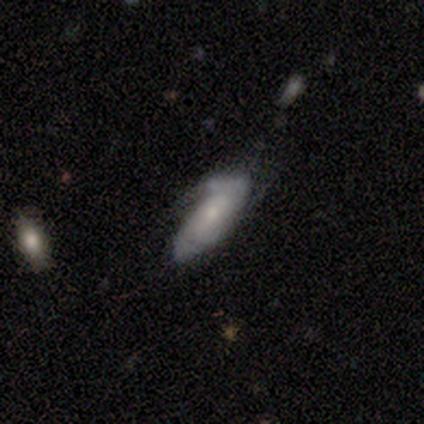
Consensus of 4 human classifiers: Overall: featured or disk (75%). Edge-on disk: no (67%; yes 33%). Bar: weak (50%, tied with no). Spiral arms: yes (50%, tied with no). Spiral arm count: 2 (100%). Spiral winding: medium (100%). Bulge size: moderate (50%, tied with none). Merging: none (50%; minor disturbance 25%).